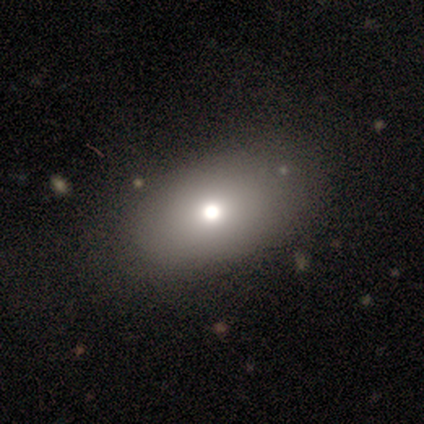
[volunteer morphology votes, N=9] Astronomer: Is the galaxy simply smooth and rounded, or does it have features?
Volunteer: smooth — 89%.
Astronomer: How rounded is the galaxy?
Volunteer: in between — 100%.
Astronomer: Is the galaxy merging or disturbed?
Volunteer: none — 62%.